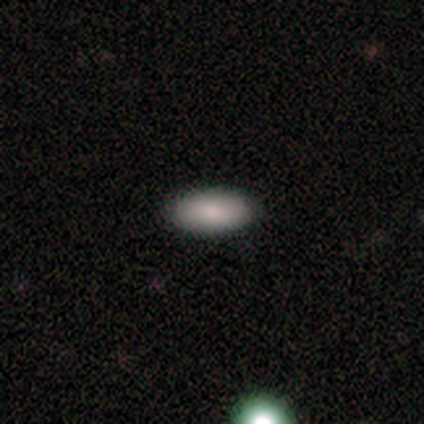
Overall: smooth (100%). How rounded: in between (100%). Merging: none (100%).